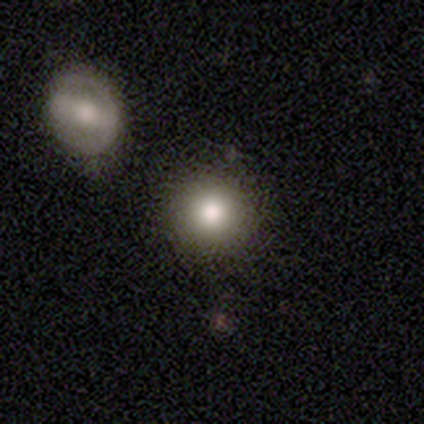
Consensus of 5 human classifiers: Smooth or featured?
  - smooth: 80% *
  - featured or disk: 20%
  - star or artifact: 0%
How rounded?
  - round: 100% *
  - in between: 0%
  - cigar-shaped: 0%
Merging?
  - none: 100% *
  - minor disturbance: 0%
  - major disturbance: 0%
  - merger: 0%